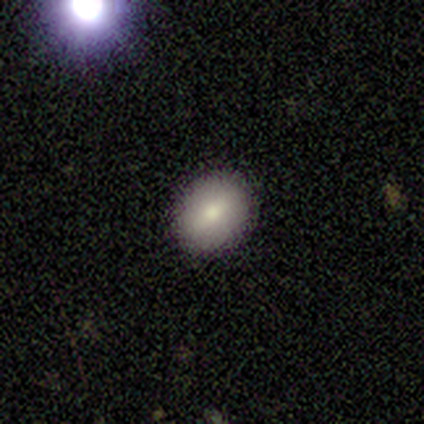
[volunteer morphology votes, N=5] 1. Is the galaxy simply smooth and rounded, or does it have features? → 80% smooth, 20% star or artifact, 0% featured or disk.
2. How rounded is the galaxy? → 100% round, 0% in between, 0% cigar-shaped.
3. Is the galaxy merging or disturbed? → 100% none, 0% minor disturbance, 0% major disturbance, 0% merger.